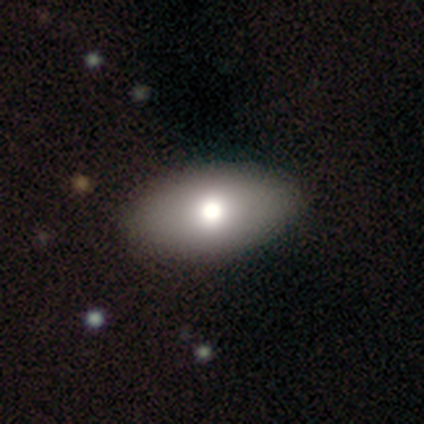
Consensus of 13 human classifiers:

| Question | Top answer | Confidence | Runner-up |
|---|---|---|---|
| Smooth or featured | smooth | 85% | star or artifact (15%) |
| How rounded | in between | 73% | round (27%) |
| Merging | none | 100% | — |